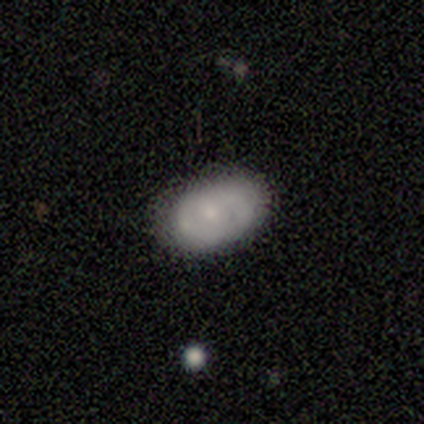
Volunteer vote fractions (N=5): Smooth or featured?
  - smooth: 60% *
  - featured or disk: 40%
  - star or artifact: 0%
How rounded?
  - in between: 100% *
  - round: 0%
  - cigar-shaped: 0%
Merging?
  - none: 80% *
  - minor disturbance: 20%
  - major disturbance: 0%
  - merger: 0%